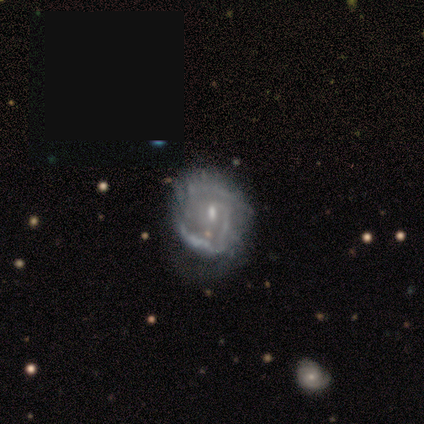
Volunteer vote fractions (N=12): Q: Smooth or featured?
A: featured or disk (67%); runner-up: smooth (17%)
Q: Edge-on disk?
A: no (100%)
Q: Bar?
A: weak (50%); tied with: no (50%)
Q: Spiral arms?
A: yes (75%); runner-up: no (25%)
Q: Spiral winding?
A: tight (50%); runner-up: loose (33%)
Q: Spiral arm count?
A: 2 (50%); runner-up: can't tell (33%)
Q: Bulge size?
A: small (88%); runner-up: none (12%)
Q: Merging?
A: none (80%); runner-up: minor disturbance (20%)